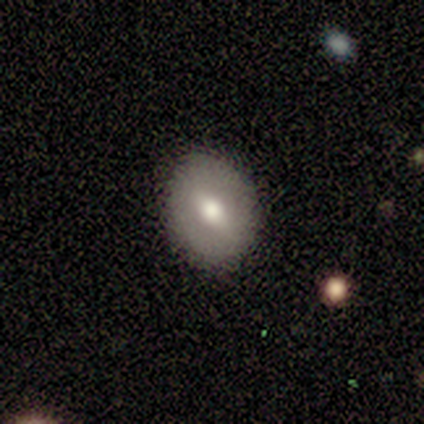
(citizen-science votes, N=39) Volunteers were most divided on "smooth or featured" (2-way tie): smooth: 46%, featured or disk: 46%, star or artifact: 8%. More confident: merging — none (89%); how rounded — round (83%).